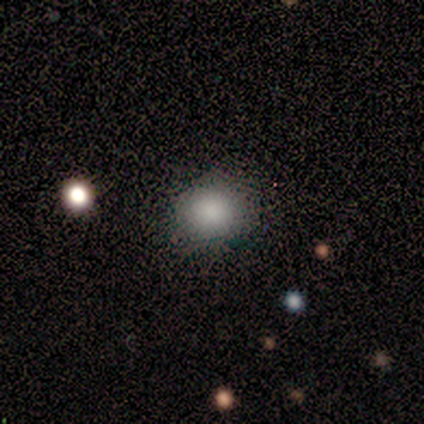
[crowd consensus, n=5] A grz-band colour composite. It shows a smooth galaxy with no disk features (80%) that is round (75%). Merging: none (100%).